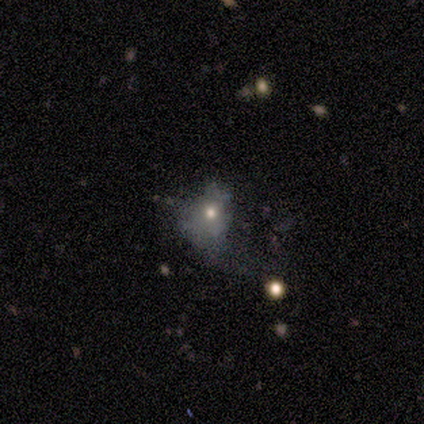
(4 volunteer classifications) Smooth or featured?
  - featured or disk: 75% *
  - smooth: 25%
  - star or artifact: 0%
Edge-on disk?
  - no: 100% *
  - yes: 0%
Bar?
  - no: 67% *
  - weak: 33%
  - strong: 0%
Spiral arms?
  - no: 100% *
  - yes: 0%
Bulge size?
  - moderate: 67% *
  - none: 33%
  - dominant: 0%
  - large: 0%
  - small: 0%
Merging?
  - major disturbance: 50% *
  - none: 25%
  - minor disturbance: 25%
  - merger: 0%